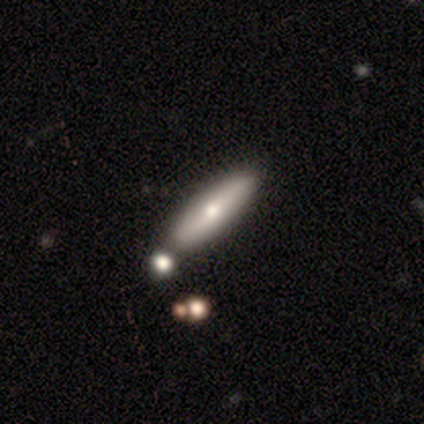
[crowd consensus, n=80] This appears to be a smooth galaxy with no disk features (68%) that is cigar-shaped (69%). Merging: none (40%).